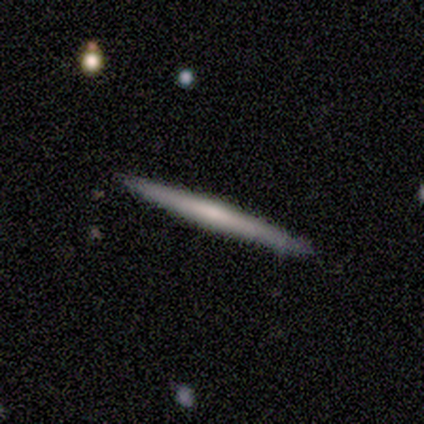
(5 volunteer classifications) This is likely a featured or disk galaxy (60%). It is clearly viewed edge-on (100%). Edge-on bulge: clearly none (100%). Merging: clearly none (80%).